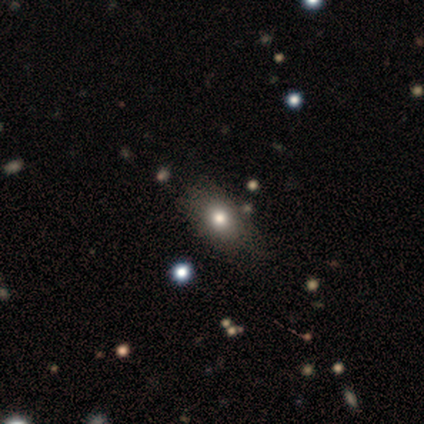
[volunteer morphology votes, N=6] Volunteers were most divided on "smooth or featured": smooth: 67%, featured or disk: 33%, star or artifact: 0%. More confident: how rounded — in between (100%); merging — none (67%).